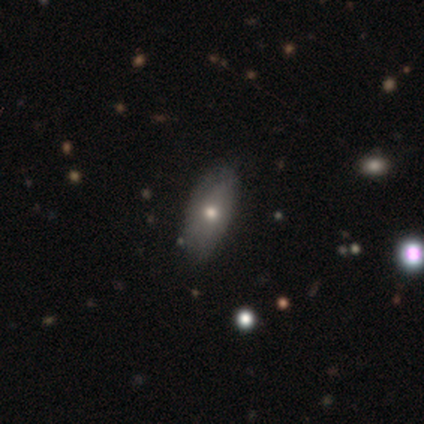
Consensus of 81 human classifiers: Overall: smooth (69%). How rounded: in between (86%). Merging: none (36%; minor disturbance 15%).